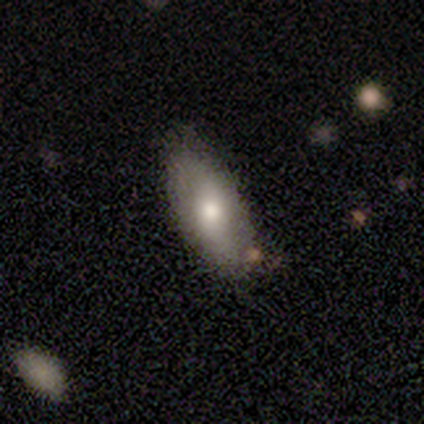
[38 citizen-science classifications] This appears to be a smooth galaxy with no disk features (58%) that is in between round and cigar-shaped (86%). Merging: none (74%).